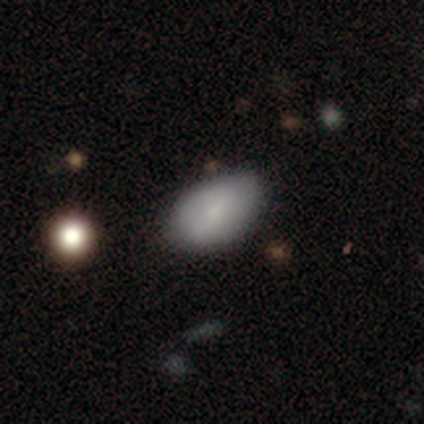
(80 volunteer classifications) This is clearly a smooth galaxy (84%). How rounded: clearly in between (91%). Merging: marginally none (43%).